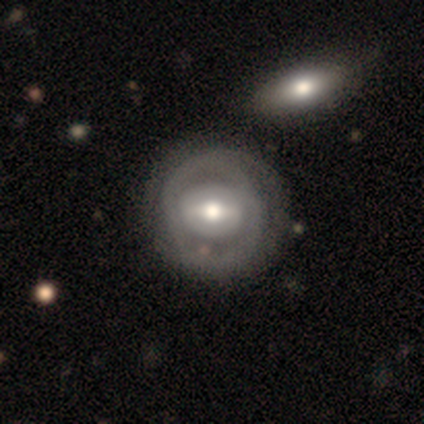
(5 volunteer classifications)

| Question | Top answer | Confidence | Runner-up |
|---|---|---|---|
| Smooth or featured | featured or disk | 80% | star or artifact (20%) |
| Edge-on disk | no | 100% | — |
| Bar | strong | 75% | weak (25%) |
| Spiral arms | yes | 75% | no (25%) |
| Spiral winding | tight | 67% | loose (33%) |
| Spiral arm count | can't tell | 67% | 2 (33%) |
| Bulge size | moderate | 50% | large (25%) |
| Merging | minor disturbance | 75% | none (25%) |